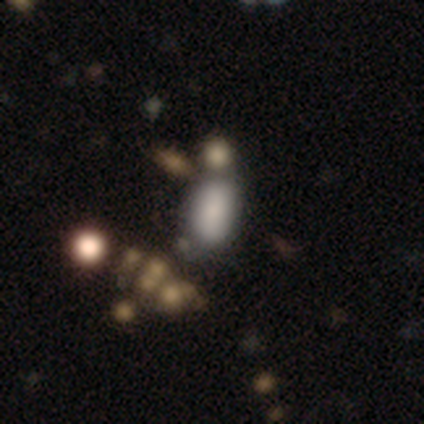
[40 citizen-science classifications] smooth 80%, featured or disk 15%, star or artifact 5%. Down the decision tree: how rounded — in between (94%); merging — none (42%).